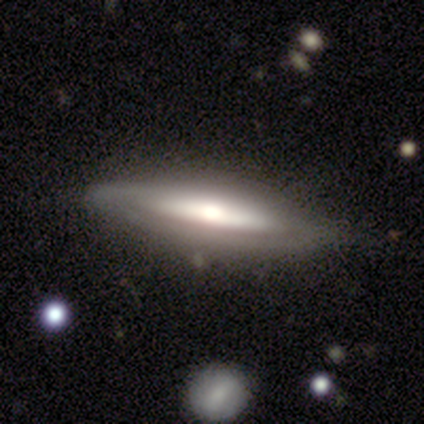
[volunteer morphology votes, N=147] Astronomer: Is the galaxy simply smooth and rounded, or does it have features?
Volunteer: featured or disk — 79%.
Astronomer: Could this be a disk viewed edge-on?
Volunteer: yes — 64%.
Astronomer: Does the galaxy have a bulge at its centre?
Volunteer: rounded — 89%.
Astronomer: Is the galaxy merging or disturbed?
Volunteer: none — 75%.